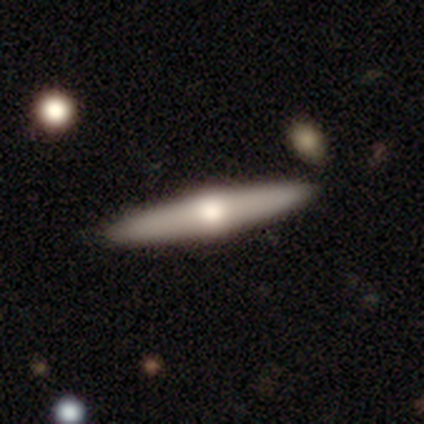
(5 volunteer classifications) smooth_or_featured: smooth (p=0.60) [alt: featured or disk p=0.40]
how_rounded: cigar-shaped (p=1.00)
merging: none (p=1.00)